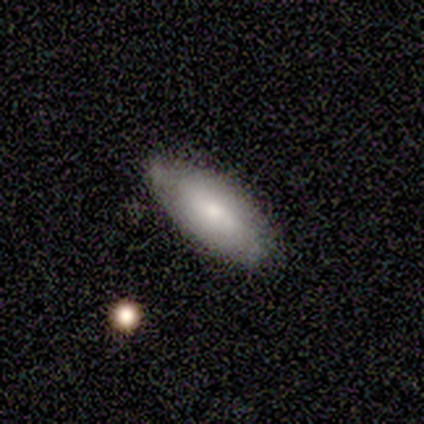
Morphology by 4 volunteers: This is possibly a smooth galaxy (50%). How rounded: clearly in between (100%). Merging: likely none (67%).